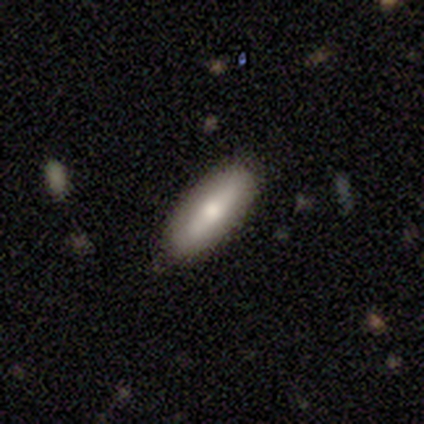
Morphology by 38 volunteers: A smooth galaxy with no disk features (66%) that is in between round and cigar-shaped (68%). Merging: none (85%).